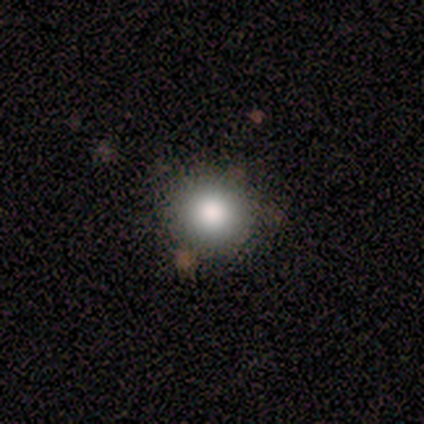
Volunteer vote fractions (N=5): This appears to be a smooth galaxy with no disk features (100%) that is round (80%). Merging: none (80%).